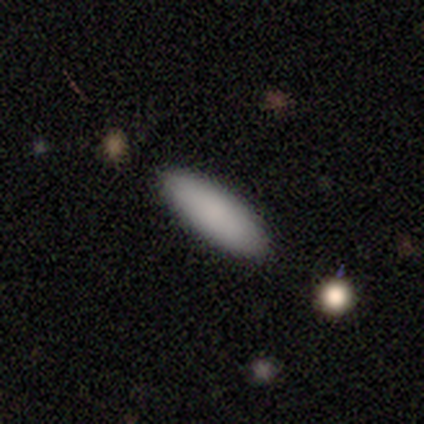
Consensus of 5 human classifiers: This appears to be a smooth galaxy with no disk features (60%) that is in between round and cigar-shaped (100%). Merging: none (50%, tied with minor disturbance).